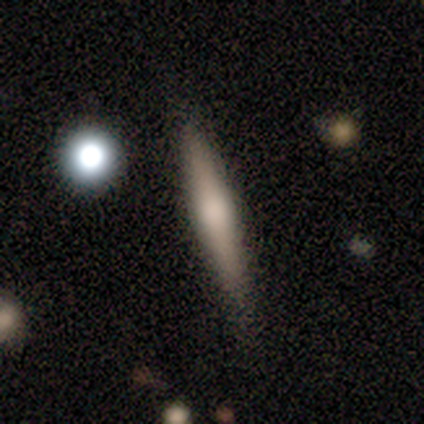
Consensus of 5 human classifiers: Smooth or featured: featured or disk — 60% (smooth — 40%)
Edge-on disk: yes — 100%
Edge-on bulge: rounded — 100%
Merging: none — 80% (minor disturbance — 20%)